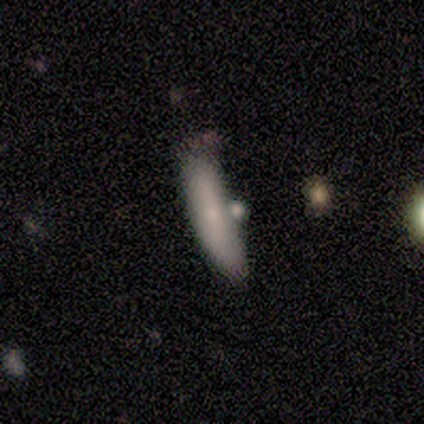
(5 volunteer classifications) This is likely a smooth galaxy (60%). How rounded: likely in between (67%). Merging: likely none (60%).